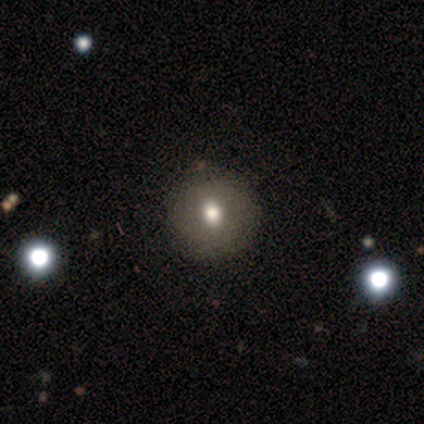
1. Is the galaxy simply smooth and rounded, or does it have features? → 100% smooth, 0% featured or disk, 0% star or artifact.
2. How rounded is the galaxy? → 100% round, 0% in between, 0% cigar-shaped.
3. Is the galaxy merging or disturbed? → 100% none, 0% minor disturbance, 0% major disturbance, 0% merger.